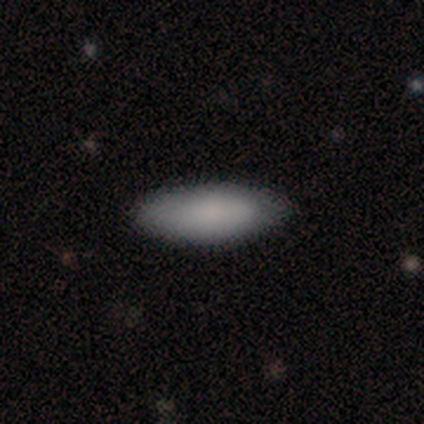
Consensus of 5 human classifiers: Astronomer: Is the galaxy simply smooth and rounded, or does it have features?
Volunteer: smooth — 100%.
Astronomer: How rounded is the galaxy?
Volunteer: in between — 100%.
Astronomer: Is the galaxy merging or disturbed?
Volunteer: none — 80%.